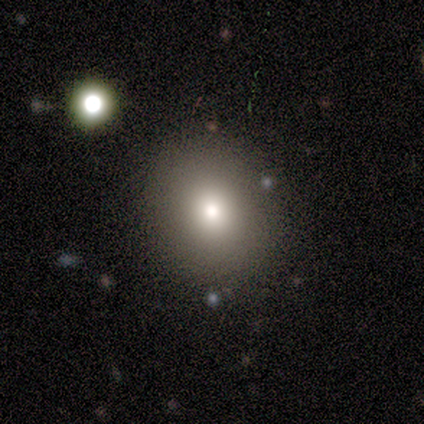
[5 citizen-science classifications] Volunteers were most divided on "how rounded": round: 75%, in between: 25%, cigar-shaped: 0%. More confident: smooth or featured — smooth (80%); merging — none (80%).